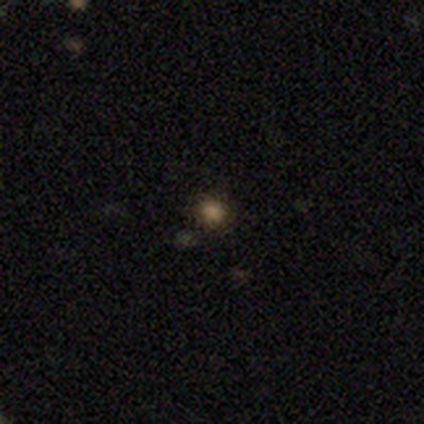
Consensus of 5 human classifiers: Smooth or featured?
  - smooth: 60% *
  - star or artifact: 40%
  - featured or disk: 0%
How rounded?
  - round: 100% *
  - in between: 0%
  - cigar-shaped: 0%
Merging?
  - none: 67% *
  - minor disturbance: 33%
  - major disturbance: 0%
  - merger: 0%